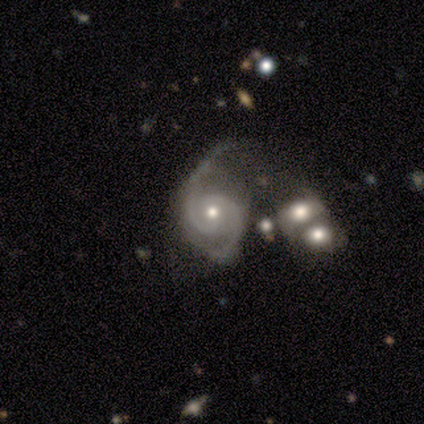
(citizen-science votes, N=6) A featured or disk galaxy (100%) with no bar (83%), 2 (100%) medium (67%) spiral arms (100%) and a moderate central bulge (83%).

Vote fractions:
- Smooth or featured? featured or disk: 100% / smooth: 0% / star or artifact: 0%
- Edge-on disk? no: 100% / yes: 0%
- Bar? no: 83% / weak: 17% / strong: 0%
- Spiral arms? yes: 100% / no: 0%
- Spiral winding? medium: 67% / tight: 33% / loose: 0%
- Spiral arm count? 2: 100% / 1: 0% / 3: 0% / 4: 0% / more than 4: 0% / can't tell: 0%
- Bulge size? moderate: 83% / small: 17% / dominant: 0% / large: 0% / none: 0%
- Merging? none: 33% (tied) / major disturbance: 33% (tied) / minor disturbance: 17% / merger: 17%